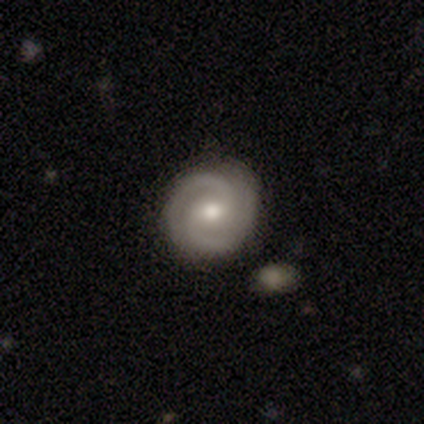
A featured or disk galaxy (87%) with a weak bar (50%), 2 (84%) tight (72%) spiral arms (100%) and a moderate central bulge (75%). Merging: none (87%).